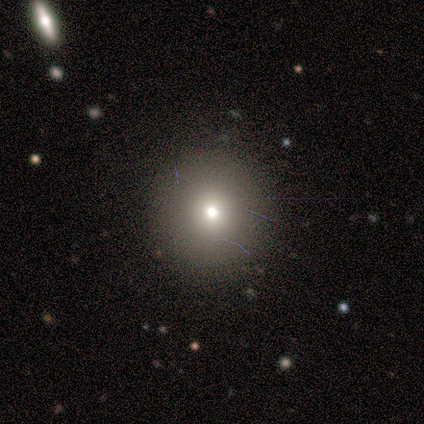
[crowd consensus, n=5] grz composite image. It shows a smooth galaxy with no disk features (60%) that is round (100%). Merging: none (100%).